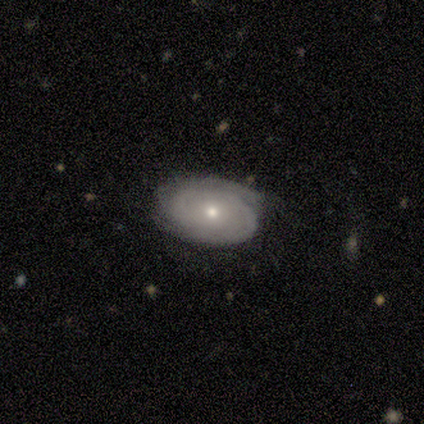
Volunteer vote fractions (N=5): Volunteers were most divided on "bulge size": small: 80%, moderate: 20%, dominant: 0%, large: 0%, none: 0%. More confident: smooth or featured — featured or disk (100%); edge-on disk — no (100%); bar — no (100%); spiral arms — yes (100%); spiral winding — tight (100%); spiral arm count — 2 (100%); merging — none (100%).